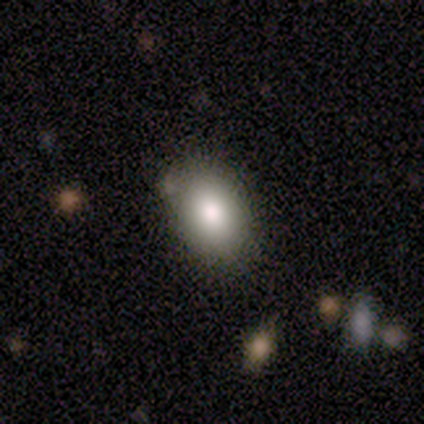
Overall: smooth (100%). How rounded: in between (100%). Merging: none (100%).